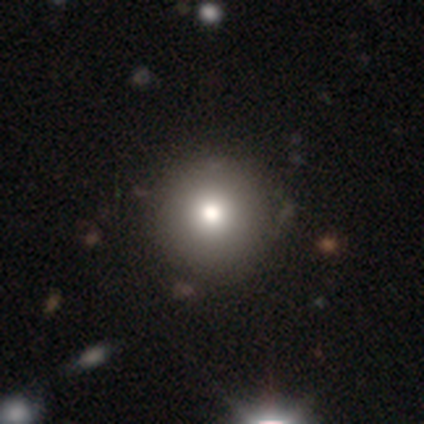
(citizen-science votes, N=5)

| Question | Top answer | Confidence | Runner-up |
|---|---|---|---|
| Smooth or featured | smooth | 80% | featured or disk (20%) |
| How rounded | round | 100% | — |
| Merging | none | 100% | — |